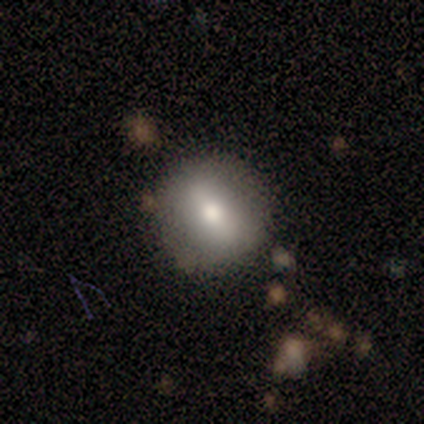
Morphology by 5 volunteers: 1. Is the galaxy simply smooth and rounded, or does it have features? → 80% smooth, 20% star or artifact, 0% featured or disk.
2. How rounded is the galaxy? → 75% round, 25% in between, 0% cigar-shaped.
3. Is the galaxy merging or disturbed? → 75% none, 25% minor disturbance, 0% major disturbance, 0% merger.